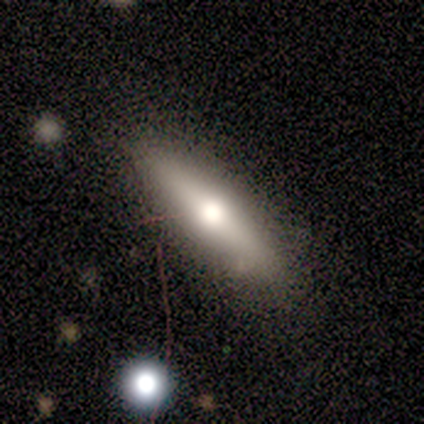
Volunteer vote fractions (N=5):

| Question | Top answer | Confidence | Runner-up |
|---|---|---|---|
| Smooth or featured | smooth | 60% | featured or disk (40%) |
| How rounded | cigar-shaped | 67% | in between (33%) |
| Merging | none | 100% | — |